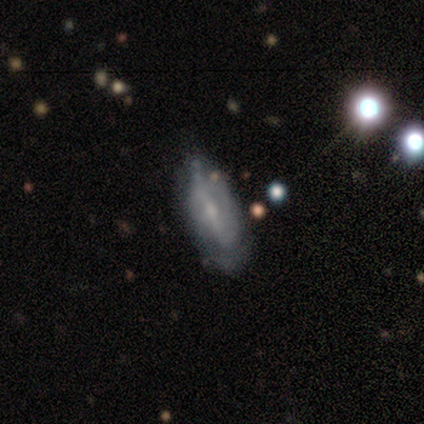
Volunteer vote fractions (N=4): featured or disk 75%, smooth 25%, star or artifact 0%. Down the decision tree: edge-on disk — no (100%); bar — no (67%); spiral arms — no (67%); bulge size — moderate (33%, tied with small and none); merging — none (50%, tied with minor disturbance).